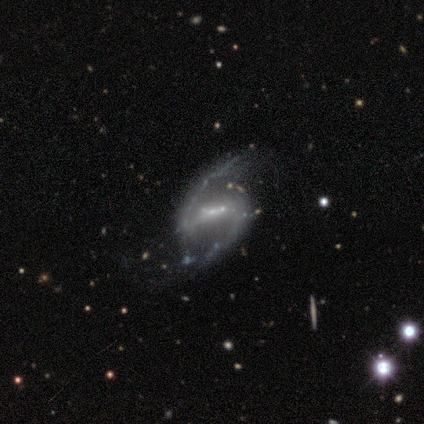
Volunteers were most divided on "bulge size": moderate: 60%, small: 40%, dominant: 0%, large: 0%, none: 0%. More confident: smooth or featured — featured or disk (100%); edge-on disk — no (100%); spiral arms — yes (100%); spiral arm count — 2 (100%); bar — strong (80%); spiral winding — medium (80%); merging — none (80%).